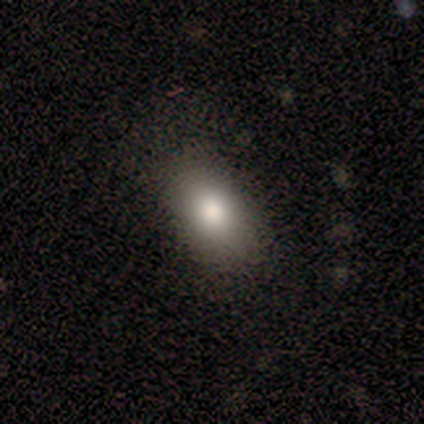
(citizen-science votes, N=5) A smooth galaxy with no disk features (80%) that is in between round and cigar-shaped (75%). Merging: none (60%).